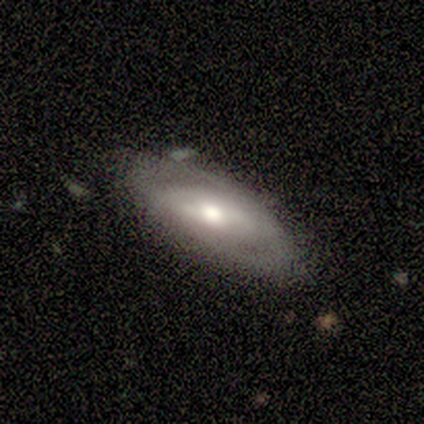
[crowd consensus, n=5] A featured or disk galaxy (100%) with a weak bar (60%), medium (100%) spiral arms (60%) and a moderate central bulge (80%). Merging: none (80%).